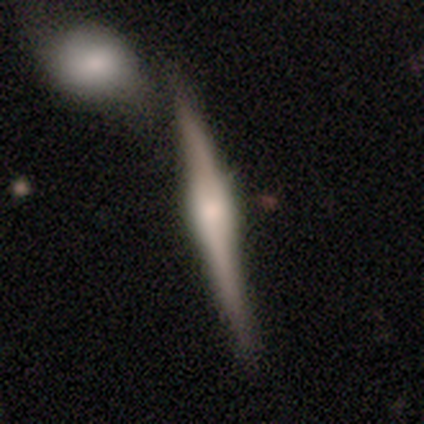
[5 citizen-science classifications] Morphology: type=featured or disk (100%); edge-on=yes (100%); edge-on bulge=rounded (80%); merging=none (40%, tied with merger).